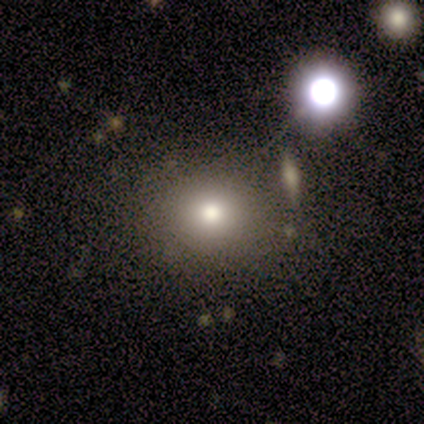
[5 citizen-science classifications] Volunteers were most divided on "smooth or featured": star or artifact: 60%, smooth: 40%, featured or disk: 0%.